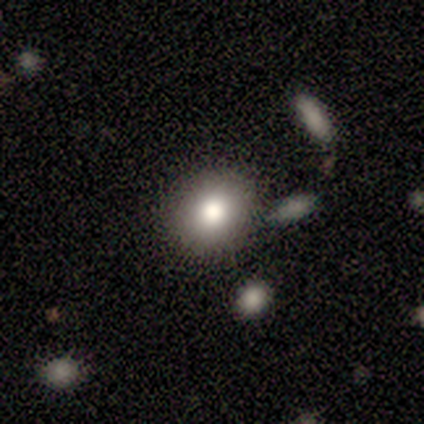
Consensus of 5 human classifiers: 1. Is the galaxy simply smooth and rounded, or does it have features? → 100% smooth, 0% featured or disk, 0% star or artifact.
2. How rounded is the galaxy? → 60% round, 40% in between, 0% cigar-shaped.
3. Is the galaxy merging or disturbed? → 60% none, 20% minor disturbance, 20% merger, 0% major disturbance.